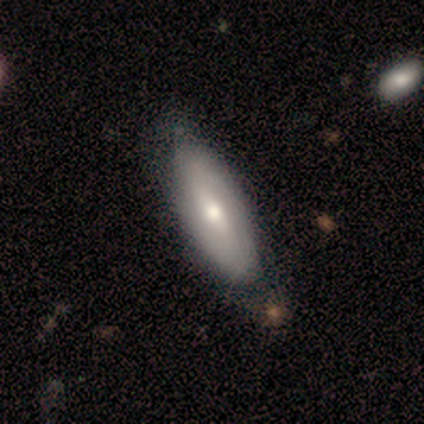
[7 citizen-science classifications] Volunteers were most divided on "how rounded": cigar-shaped: 60%, in between: 40%, round: 0%. More confident: smooth or featured — smooth (71%); merging — none (71%).